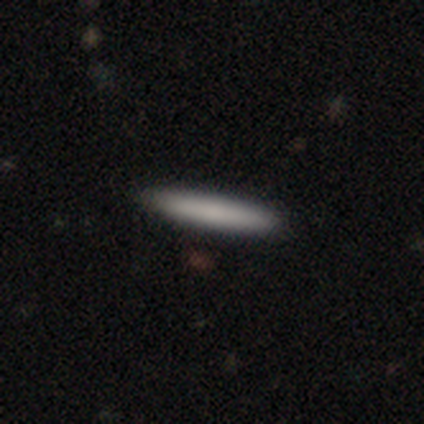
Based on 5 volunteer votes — Smooth or featured? smooth (100%)
How rounded? cigar-shaped (100%)
Merging? none (100%)